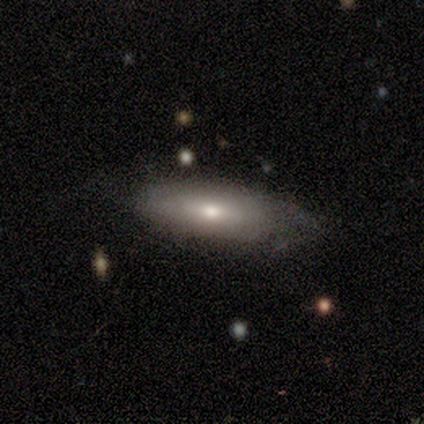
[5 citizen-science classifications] This is clearly a smooth galaxy (80%). How rounded: likely in between (75%). Merging: clearly none (80%).